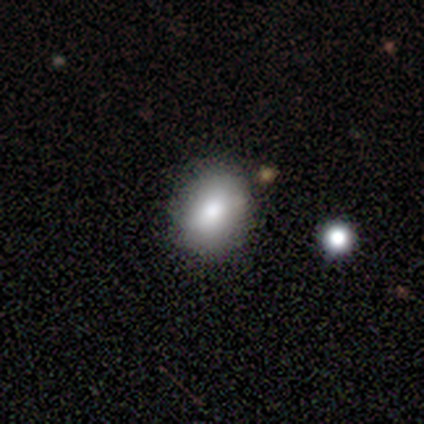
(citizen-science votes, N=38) A smooth galaxy with no disk features (87%) that is round (52%). Merging: none (81%).